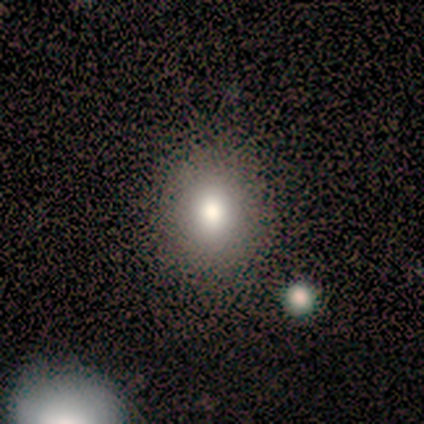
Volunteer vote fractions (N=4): smooth-or-featured: smooth: 75% | featured or disk: 25% | star or artifact: 0%
  how-rounded: round: 67% | in between: 33% | cigar-shaped: 0%
  merging: none: 75% | minor disturbance: 25% | major disturbance: 0% | merger: 0%